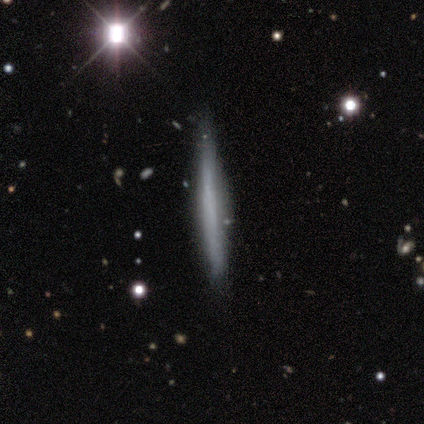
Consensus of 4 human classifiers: Morphology: type=smooth (50%, tied with featured or disk); roundness=cigar-shaped (100%); merging=none (75%).